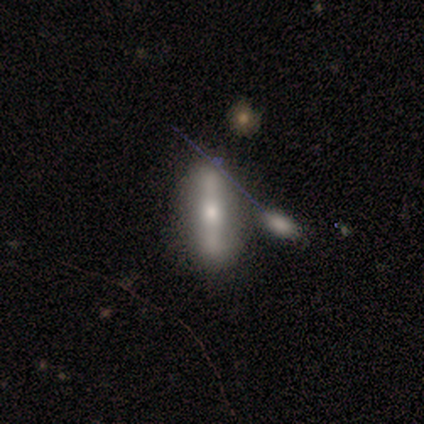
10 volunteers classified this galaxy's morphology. Smooth or featured: featured or disk — 70% (smooth — 30%)
Edge-on disk: yes — 57% (no — 43%)
Edge-on bulge: boxy — 50% (tied with rounded — 50%)
Merging: none — 70% (minor disturbance — 30%)